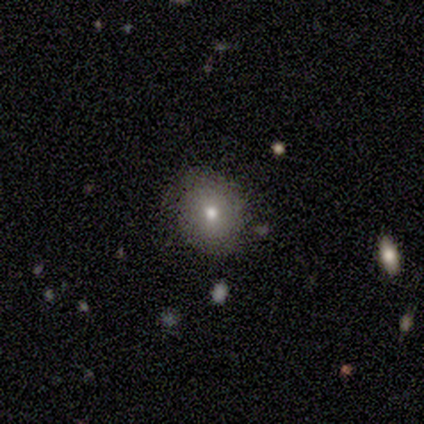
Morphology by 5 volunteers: This is likely a smooth galaxy (60%). How rounded: likely round (67%). Merging: likely none (67%).